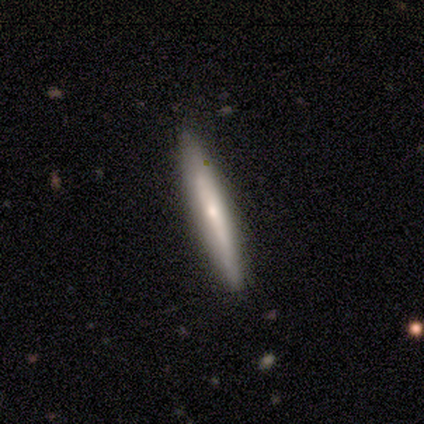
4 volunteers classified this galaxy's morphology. Q: Smooth or featured?
A: smooth (75%); runner-up: featured or disk (25%)
Q: How rounded?
A: cigar-shaped (100%)
Q: Merging?
A: none (100%)